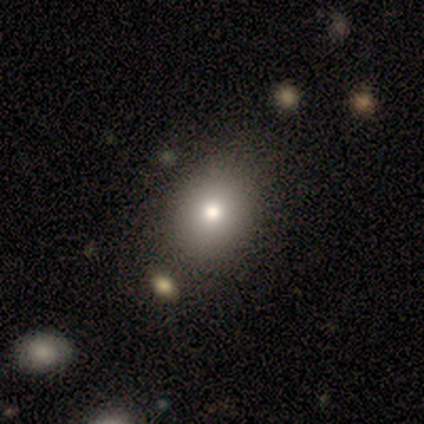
This is clearly a smooth galaxy (82%). How rounded: possibly in between (52%). Merging: possibly none (48%).